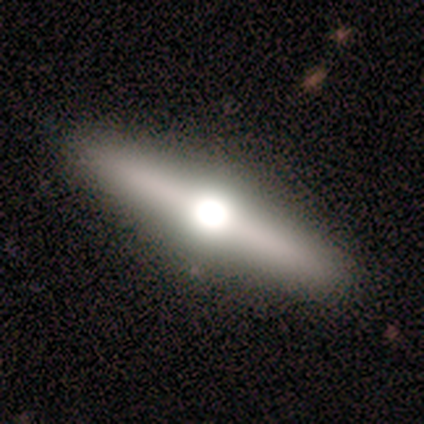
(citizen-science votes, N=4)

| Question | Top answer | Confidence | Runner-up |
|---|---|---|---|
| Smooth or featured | smooth | 50% | tied: featured or disk (50%) |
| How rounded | cigar-shaped | 100% | — |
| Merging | none | 100% | — |